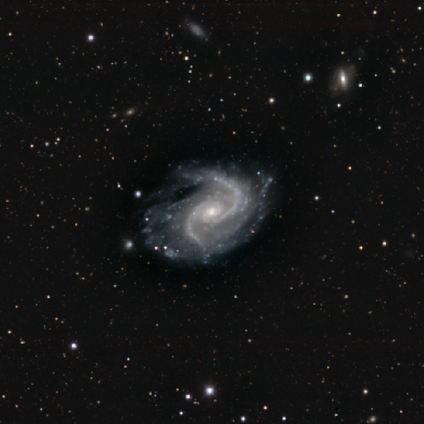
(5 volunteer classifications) A featured or disk galaxy (100%) with a weak bar (40%, tied with no), 2 (80%) medium (80%) spiral arms (100%) and a small central bulge (80%). Merging: none (80%).